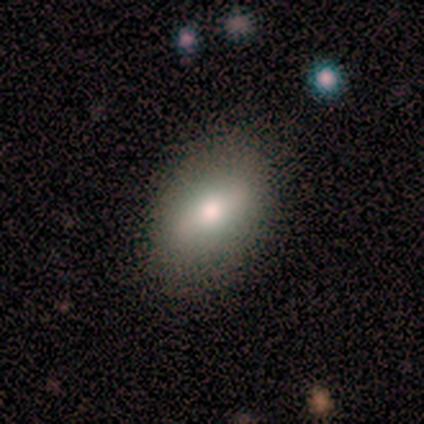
This is possibly a smooth galaxy (50%, tied with featured or disk). How rounded: clearly in between (100%). Merging: clearly none (100%).